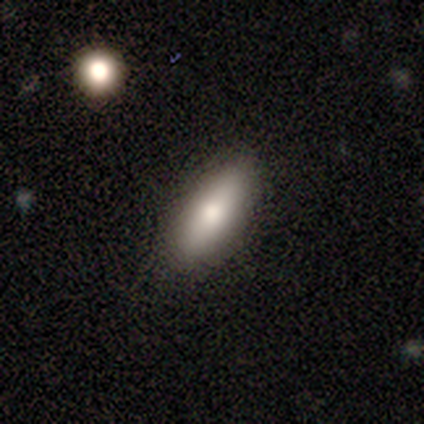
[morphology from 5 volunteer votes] This appears to be a smooth galaxy with no disk features (60%) that is in between round and cigar-shaped (67%). Merging: none (100%).